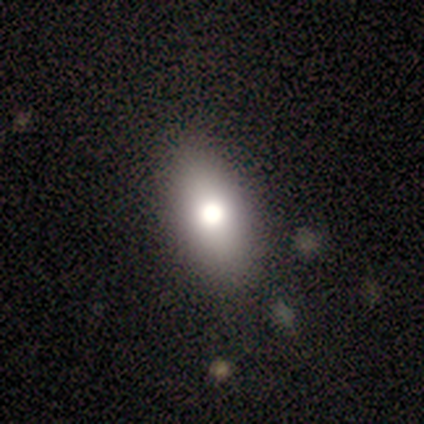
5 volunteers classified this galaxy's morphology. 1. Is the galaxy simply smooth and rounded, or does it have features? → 80% smooth, 20% star or artifact, 0% featured or disk.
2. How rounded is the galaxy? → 100% in between, 0% round, 0% cigar-shaped.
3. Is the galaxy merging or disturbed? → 50% none (tied), 50% minor disturbance (tied), 0% major disturbance, 0% merger.